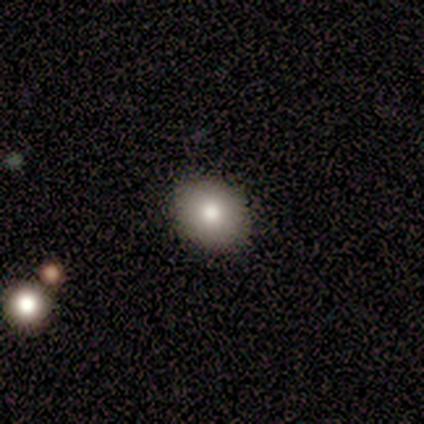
smooth_or_featured: smooth (p=0.80) [alt: star or artifact p=0.20]
how_rounded: round (p=0.75) [alt: in between p=0.25]
merging: none (p=1.00)